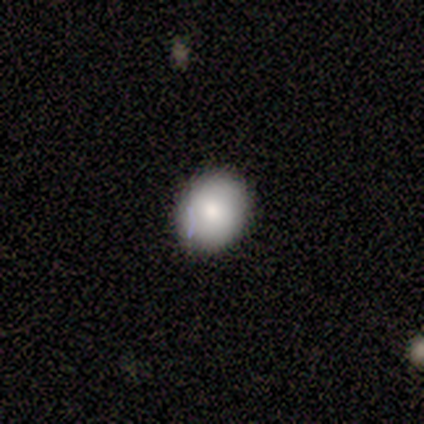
Smooth or featured?
  - smooth: 100% *
  - featured or disk: 0%
  - star or artifact: 0%
How rounded?
  - round: 60% *
  - in between: 40%
  - cigar-shaped: 0%
Merging?
  - none: 100% *
  - minor disturbance: 0%
  - major disturbance: 0%
  - merger: 0%